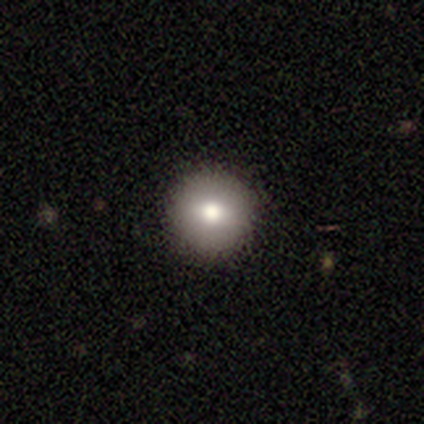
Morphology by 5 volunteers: Smooth or featured: smooth — 60% (featured or disk — 40%)
How rounded: round — 100%
Merging: none — 100%